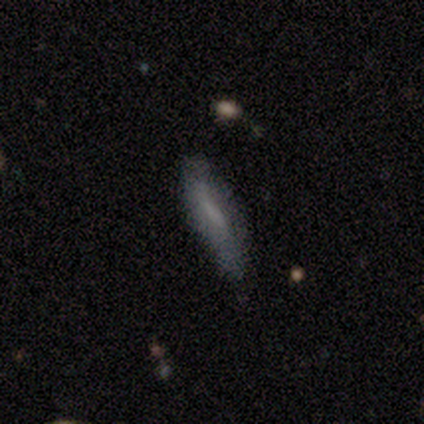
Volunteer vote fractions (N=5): Overall: smooth (80%). How rounded: cigar-shaped (75%). Merging: none (80%).